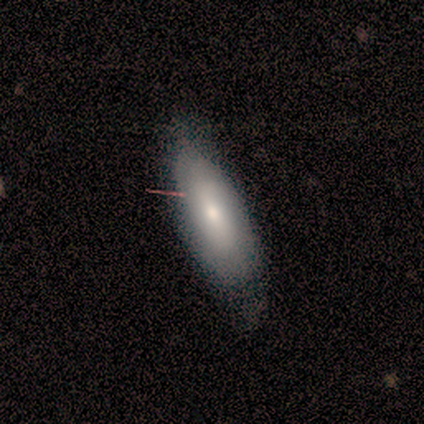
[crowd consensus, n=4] Smooth or featured?
  - smooth: 50% * (tied)
  - featured or disk: 50% * (tied)
  - star or artifact: 0%
How rounded?
  - in between: 50% * (tied)
  - cigar-shaped: 50% * (tied)
  - round: 0%
Merging?
  - none: 100% *
  - minor disturbance: 0%
  - major disturbance: 0%
  - merger: 0%